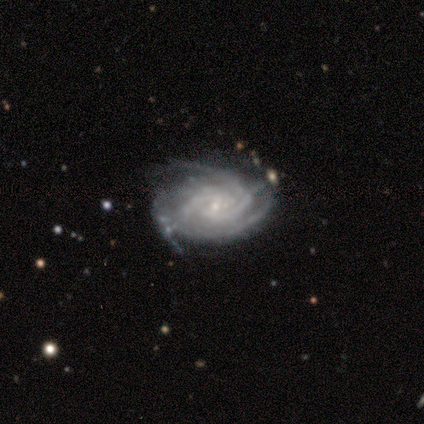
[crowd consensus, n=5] featured or disk 100%, smooth 0%, star or artifact 0%. Down the decision tree: edge-on disk — no (100%); bar — no (100%); spiral arms — yes (100%); spiral arm count — 3 (40%, tied with can't tell); spiral winding — tight (60%); bulge size — small (80%); merging — none (100%).